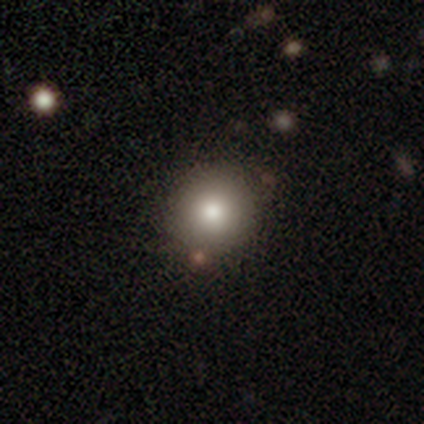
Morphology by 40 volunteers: Smooth or featured? smooth (92%)
How rounded? round (95%)
Merging? none (82%)